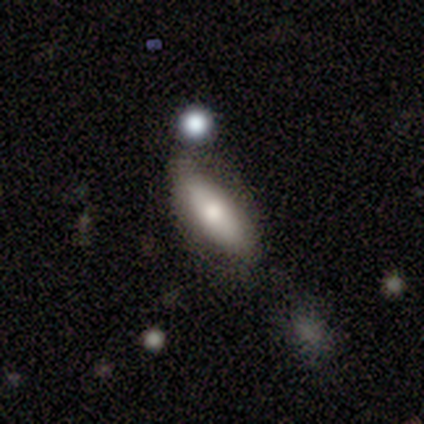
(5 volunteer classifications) Smooth or featured? smooth (60%)
How rounded? in between (67%)
Merging? none (60%)